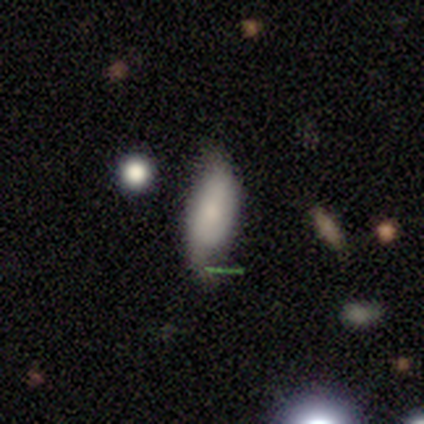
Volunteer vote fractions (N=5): This is clearly a smooth galaxy (80%). How rounded: clearly in between (100%). Merging: clearly minor disturbance (80%).